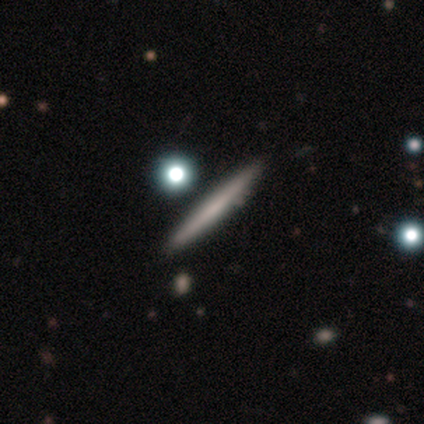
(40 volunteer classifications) Smooth or featured?
  - featured or disk: 57% *
  - smooth: 42%
  - star or artifact: 0%
Edge-on disk?
  - yes: 96% *
  - no: 4%
Edge-on bulge?
  - none: 86% *
  - boxy: 9%
  - rounded: 5%
Merging?
  - none: 55% *
  - merger: 8%
  - minor disturbance: 2%
  - major disturbance: 2%